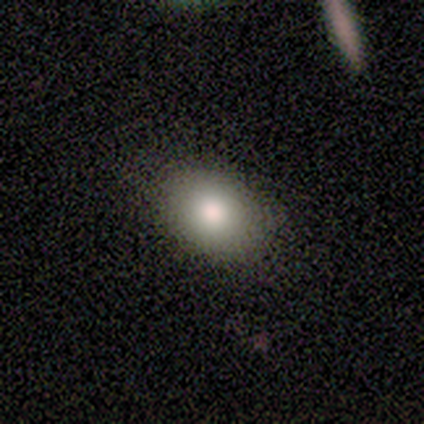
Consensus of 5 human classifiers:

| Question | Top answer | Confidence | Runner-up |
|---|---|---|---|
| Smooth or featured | smooth | 80% | featured or disk (20%) |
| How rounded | in between | 100% | — |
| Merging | none | 100% | — |